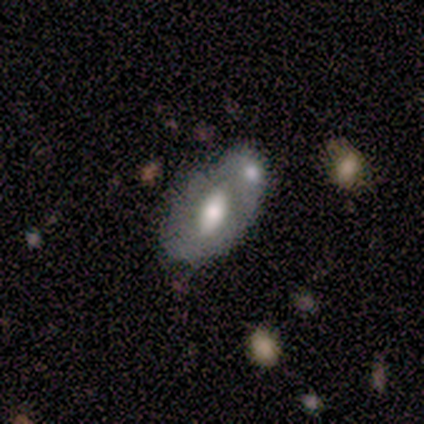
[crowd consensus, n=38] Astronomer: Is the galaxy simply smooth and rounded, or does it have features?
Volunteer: featured or disk — 50% (runner-up: smooth, 39%).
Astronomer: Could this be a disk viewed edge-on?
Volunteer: no — 79%.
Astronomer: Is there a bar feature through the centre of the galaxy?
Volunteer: no — 53%.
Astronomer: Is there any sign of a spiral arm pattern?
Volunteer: no — 87%.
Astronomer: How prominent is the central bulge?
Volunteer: moderate — 53%.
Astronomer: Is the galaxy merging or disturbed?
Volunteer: merger — 56%.